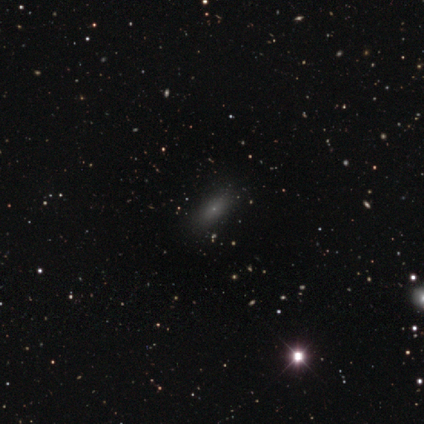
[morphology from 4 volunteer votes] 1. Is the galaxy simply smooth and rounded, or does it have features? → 75% smooth, 25% star or artifact, 0% featured or disk.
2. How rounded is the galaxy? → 67% in between, 33% cigar-shaped, 0% round.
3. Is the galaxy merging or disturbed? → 100% none, 0% minor disturbance, 0% major disturbance, 0% merger.